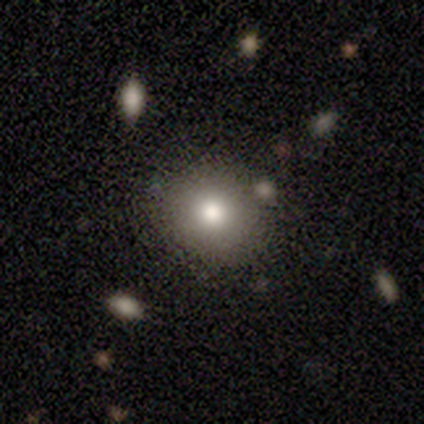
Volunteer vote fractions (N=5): A smooth galaxy with no disk features (100%) that is round (100%).

Vote fractions:
- Smooth or featured? smooth: 100% / featured or disk: 0% / star or artifact: 0%
- How rounded? round: 100% / in between: 0% / cigar-shaped: 0%
- Merging? none: 100% / minor disturbance: 0% / major disturbance: 0% / merger: 0%